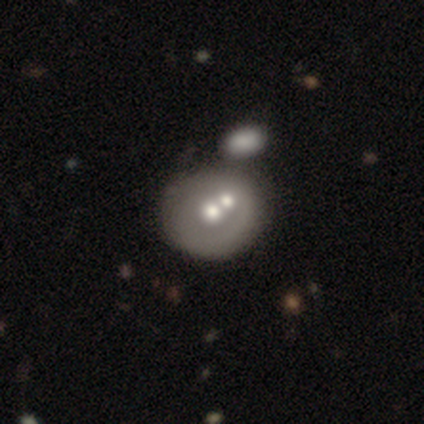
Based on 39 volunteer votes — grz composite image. It shows a featured or disk galaxy (49%) with no bar (100%), no spiral arms (89%) and a moderate central bulge (100%). Merging: merger (65%).